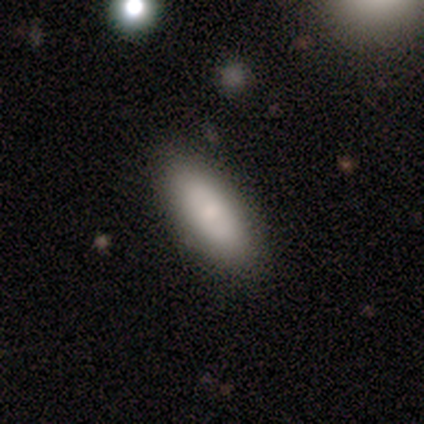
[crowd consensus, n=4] Smooth or featured? 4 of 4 (100%) said smooth. How rounded? 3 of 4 (75%) said in between. Merging? 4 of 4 (100%) said none.